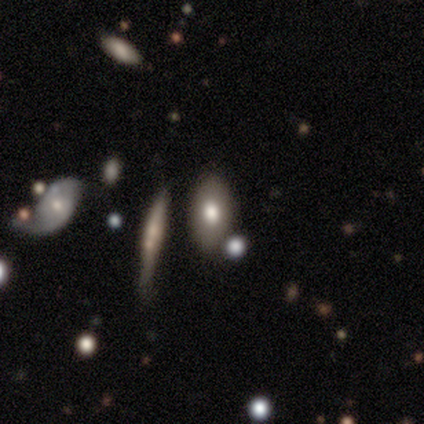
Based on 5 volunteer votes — Smooth or featured? featured or disk (60%)
Edge-on disk? no (67%)
Bar? no (100%)
Spiral arms? no (100%)
Bulge size? moderate (100%)
Merging? none (100%)